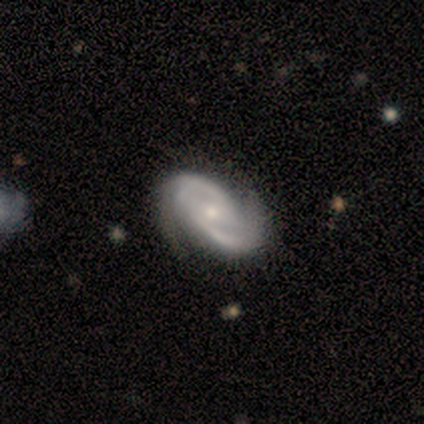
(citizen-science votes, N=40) This is clearly a featured or disk galaxy (98%). It is clearly not viewed edge-on (100%). Bar: possibly weak (59%). Spiral arm pattern: clearly yes (97%). Spiral arm count: clearly 2 (92%). Spiral winding: possibly tight (50%). Central bulge: possibly small (51%). Merging: marginally none (38%).